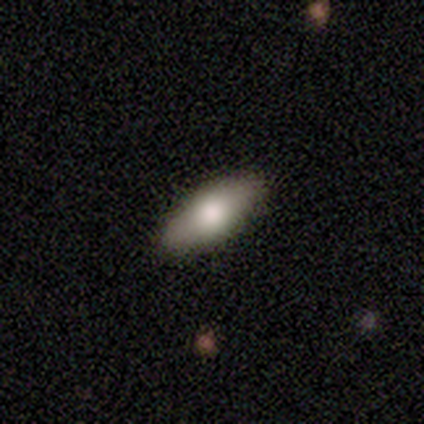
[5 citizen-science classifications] This appears to be a smooth galaxy with no disk features (100%) that is cigar-shaped (60%). Merging: none (100%).